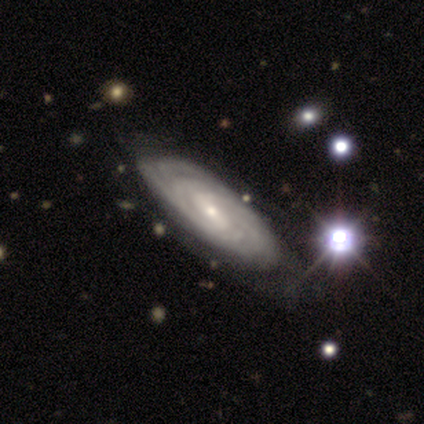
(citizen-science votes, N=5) smooth-or-featured: featured or disk: 100% | smooth: 0% | star or artifact: 0%
  disk-edge-on: no: 60% | yes: 40%
    bar: strong: 33% (tied) | weak: 33% (tied) | no: 33% (tied)
    has-spiral-arms: yes: 100% | no: 0%
      spiral-winding: tight: 67% | medium: 33% | loose: 0%
      spiral-arm-count: can't tell: 67% | 3: 33% | 1: 0% | 2: 0% | 4: 0% | more than 4: 0%
    bulge-size: small: 67% | moderate: 33% | dominant: 0% | large: 0% | none: 0%
  merging: none: 80% | minor disturbance: 20% | major disturbance: 0% | merger: 0%